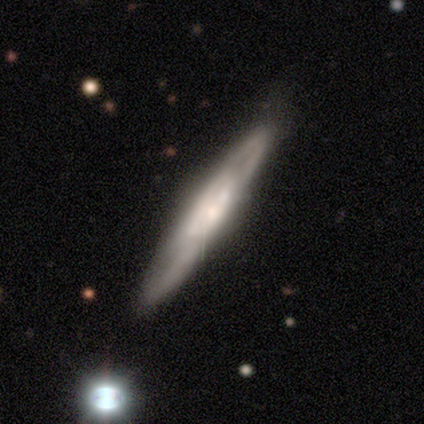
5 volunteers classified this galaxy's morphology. Smooth or featured?
  - featured or disk: 80% *
  - star or artifact: 20%
  - smooth: 0%
Edge-on disk?
  - yes: 50% * (tied)
  - no: 50% * (tied)
Edge-on bulge?
  - boxy: 50% * (tied)
  - rounded: 50% * (tied)
  - none: 0%
Merging?
  - none: 75% *
  - minor disturbance: 25%
  - major disturbance: 0%
  - merger: 0%